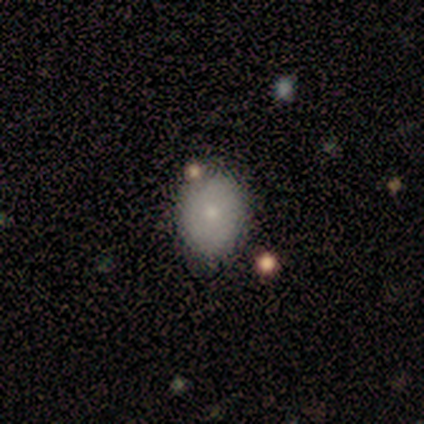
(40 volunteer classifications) This is likely a smooth galaxy (70%). How rounded: possibly in between (57%). Merging: likely none (76%).